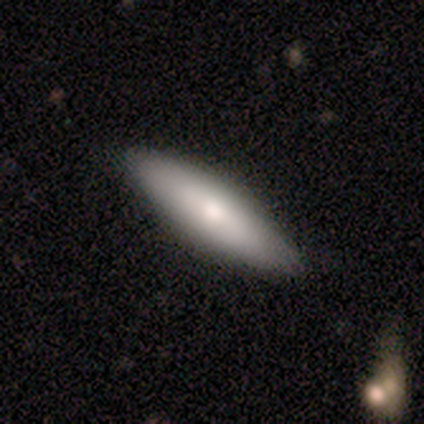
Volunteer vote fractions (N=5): featured or disk 60%, smooth 40%, star or artifact 0%. Down the decision tree: edge-on disk — yes (67%); edge-on bulge — rounded (100%); merging — none (80%).